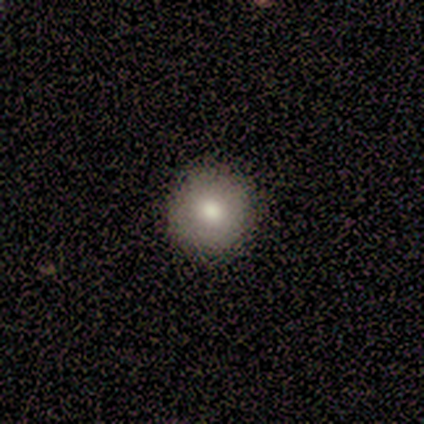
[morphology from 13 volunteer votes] Smooth or featured: smooth — 77% (star or artifact — 15%)
How rounded: round — 90% (in between — 10%)
Merging: none — 100%